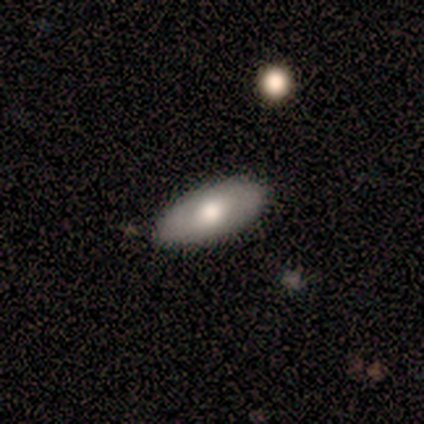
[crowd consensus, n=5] Morphology: type=smooth (60%); roundness=in between (100%); merging=none (100%).